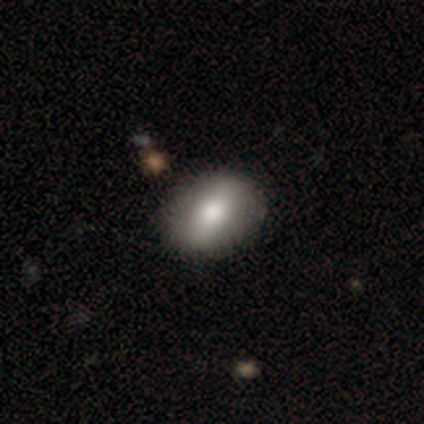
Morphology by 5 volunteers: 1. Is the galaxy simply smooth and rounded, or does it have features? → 80% smooth, 20% featured or disk, 0% star or artifact.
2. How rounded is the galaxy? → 50% in between, 25% round, 25% cigar-shaped.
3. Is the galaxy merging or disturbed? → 100% none, 0% minor disturbance, 0% major disturbance, 0% merger.